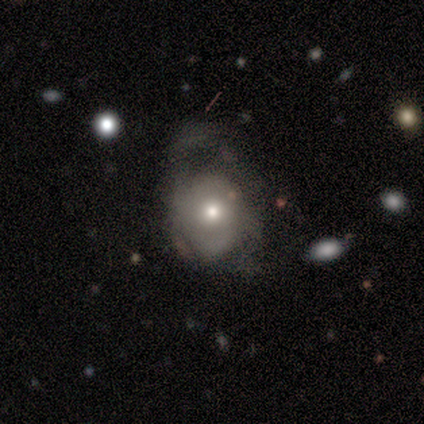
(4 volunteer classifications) A smooth galaxy with no disk features (75%) that is round (67%). Merging: major disturbance (50%).